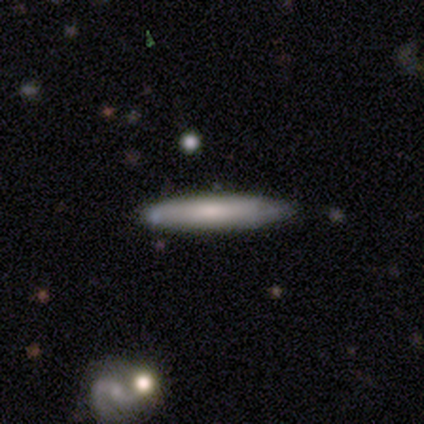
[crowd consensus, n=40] smooth_or_featured: smooth (p=0.65) [alt: featured or disk p=0.30]
how_rounded: cigar-shaped (p=0.88) [alt: in between p=0.08]
merging: none (p=0.74) [alt: minor disturbance p=0.13]